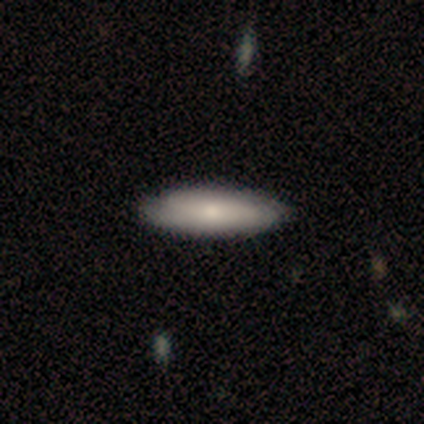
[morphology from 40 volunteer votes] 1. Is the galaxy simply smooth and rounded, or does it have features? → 72% smooth, 28% featured or disk, 0% star or artifact.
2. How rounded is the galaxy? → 59% cigar-shaped, 38% in between, 3% round.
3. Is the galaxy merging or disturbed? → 68% none, 5% minor disturbance, 0% major disturbance, 0% merger.